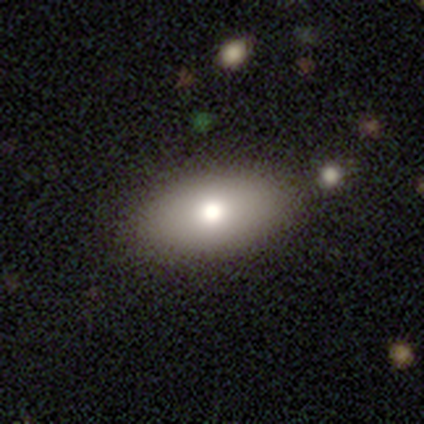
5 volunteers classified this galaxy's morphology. Volunteers were most divided on "smooth or featured" (2-way tie): smooth: 40%, featured or disk: 40%, star or artifact: 20%. More confident: how rounded — in between (100%); merging — none (75%).